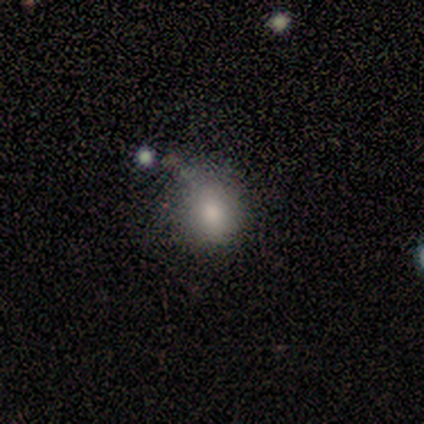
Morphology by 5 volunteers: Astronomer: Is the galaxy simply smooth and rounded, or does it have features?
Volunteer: smooth — 80%.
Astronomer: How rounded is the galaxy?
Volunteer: round — 100%.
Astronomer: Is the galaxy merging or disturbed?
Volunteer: none — 60% (runner-up: major disturbance, 40%).